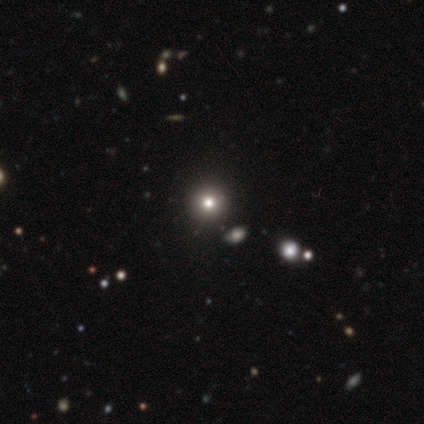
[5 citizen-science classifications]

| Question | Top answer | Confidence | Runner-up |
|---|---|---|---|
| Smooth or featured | star or artifact | 60% | smooth (40%) |